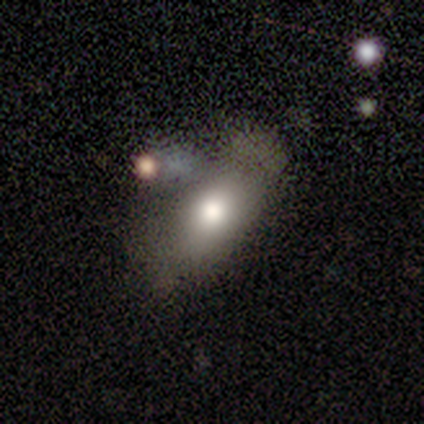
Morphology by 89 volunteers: Q: Smooth or featured?
A: smooth (70%); runner-up: featured or disk (22%)
Q: How rounded?
A: in between (82%); runner-up: cigar-shaped (11%)
Q: Merging?
A: none (49%); runner-up: merger (23%)